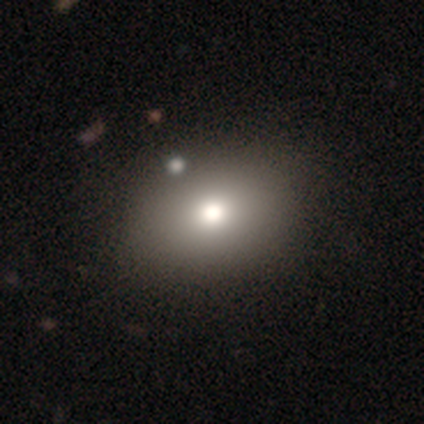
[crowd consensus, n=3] Overall: smooth (100%). How rounded: in between (67%; round 33%). Merging: none (100%).